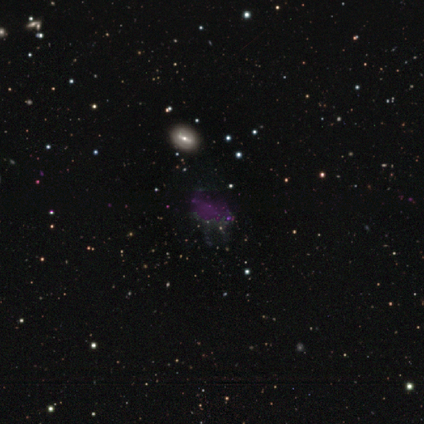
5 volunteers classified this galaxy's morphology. A star or artifact, not a galaxy (60%).